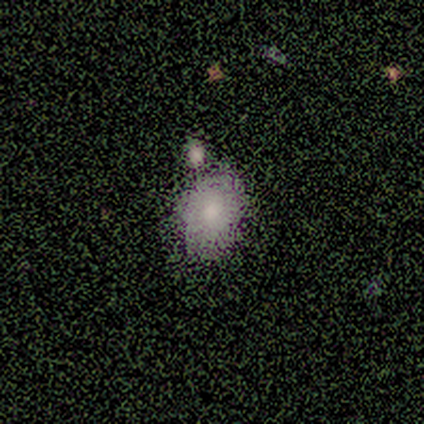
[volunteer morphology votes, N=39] Volunteers were most divided on "how rounded": in between: 57%, round: 43%, cigar-shaped: 0%. Remaining: smooth or featured — smooth (77%); merging — none (49%).